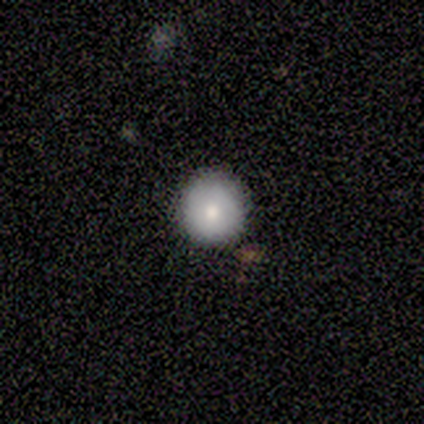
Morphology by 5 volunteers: Smooth or featured: smooth — 80% (featured or disk — 20%)
How rounded: round — 100%
Merging: none — 100%